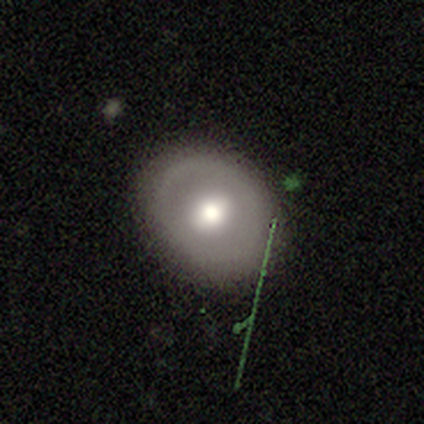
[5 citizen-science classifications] smooth-or-featured: featured or disk: 60% | smooth: 40% | star or artifact: 0%
  disk-edge-on: no: 100% | yes: 0%
    bar: weak: 100% | strong: 0% | no: 0%
    has-spiral-arms: no: 100% | yes: 0%
    bulge-size: moderate: 100% | dominant: 0% | large: 0% | small: 0% | none: 0%
  merging: none: 100% | minor disturbance: 0% | major disturbance: 0% | merger: 0%